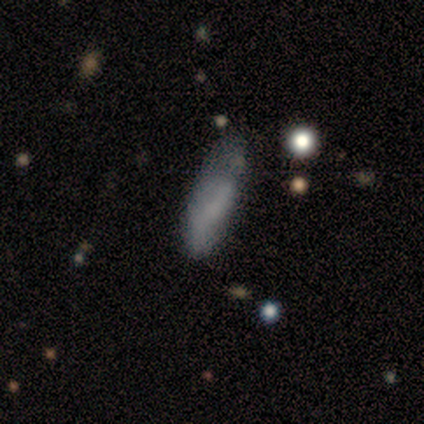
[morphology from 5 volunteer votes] Smooth or featured?
  - smooth: 80% *
  - featured or disk: 20%
  - star or artifact: 0%
How rounded?
  - cigar-shaped: 75% *
  - in between: 25%
  - round: 0%
Merging?
  - none: 40% * (tied)
  - merger: 40% * (tied)
  - minor disturbance: 20%
  - major disturbance: 0%